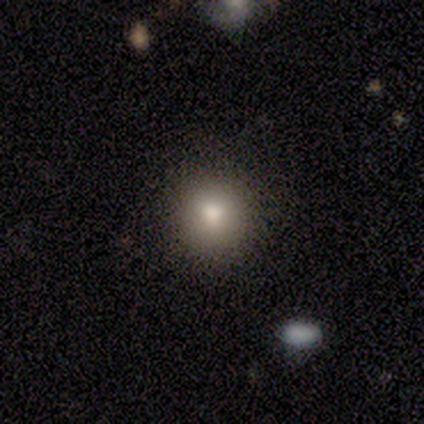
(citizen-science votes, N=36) This is likely a smooth galaxy (75%). How rounded: clearly round (100%). Merging: clearly none (94%).